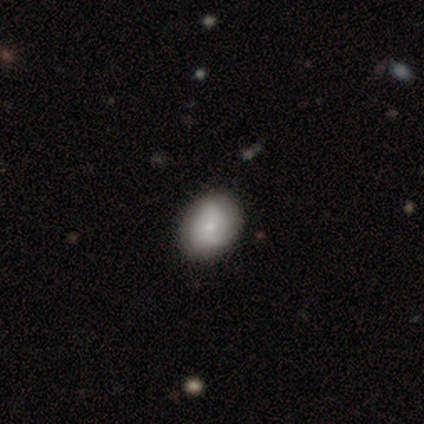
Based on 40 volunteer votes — Volunteers were most divided on "smooth or featured": featured or disk: 50%, smooth: 45%, star or artifact: 5%. More confident: edge-on disk — no (100%); bar — no (85%); spiral arms — yes (70%); spiral arm count — 2 (64%); merging — none (58%); bulge size — small (55%); spiral winding — medium (50%).